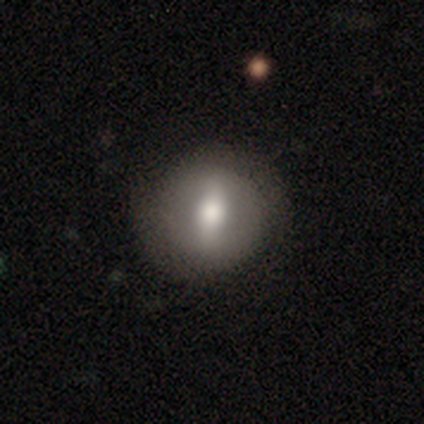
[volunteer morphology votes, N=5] smooth 80%, featured or disk 20%, star or artifact 0%. Down the decision tree: how rounded — round (100%); merging — none (60%).